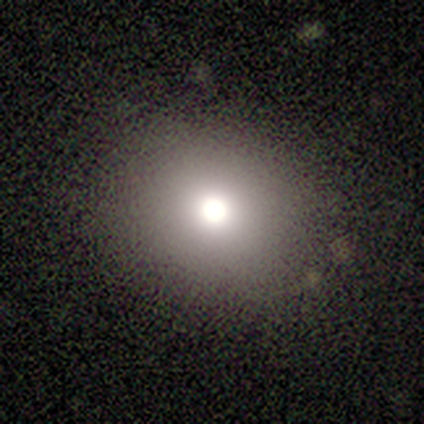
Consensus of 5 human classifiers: A smooth galaxy with no disk features (60%) that is round (67%). Merging: minor disturbance (80%).